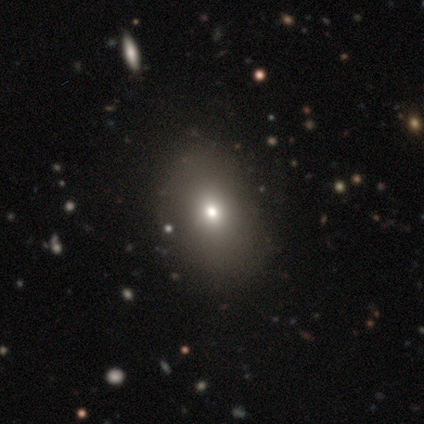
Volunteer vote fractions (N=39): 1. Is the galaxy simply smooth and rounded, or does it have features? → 51% smooth, 31% star or artifact, 18% featured or disk.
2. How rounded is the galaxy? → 65% in between, 35% round, 0% cigar-shaped.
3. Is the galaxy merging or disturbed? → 81% none, 11% minor disturbance, 4% major disturbance, 4% merger.